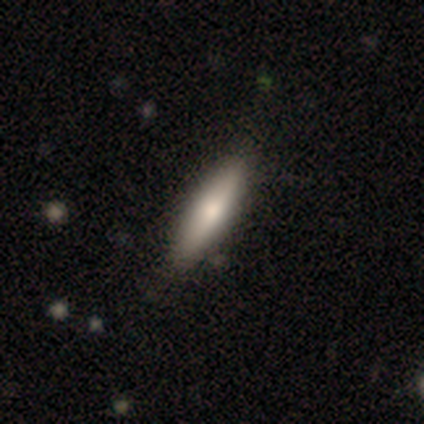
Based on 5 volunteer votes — Smooth or featured: smooth — 80% (featured or disk — 20%)
How rounded: cigar-shaped — 75% (in between — 25%)
Merging: minor disturbance — 60% (none — 40%)